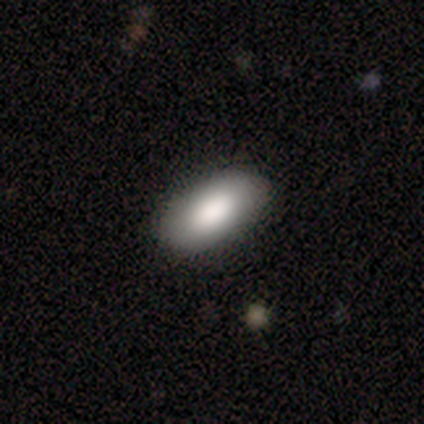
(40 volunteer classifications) Smooth or featured?
  - smooth: 85% *
  - featured or disk: 10%
  - star or artifact: 5%
How rounded?
  - in between: 100% *
  - round: 0%
  - cigar-shaped: 0%
Merging?
  - none: 97% *
  - minor disturbance: 3%
  - major disturbance: 0%
  - merger: 0%